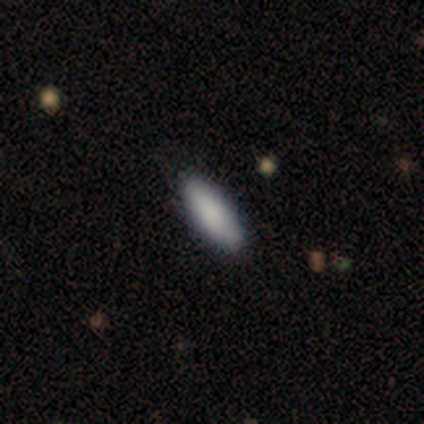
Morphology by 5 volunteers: A smooth galaxy with no disk features (100%) that is cigar-shaped (60%).

Vote fractions:
- Smooth or featured? smooth: 100% / featured or disk: 0% / star or artifact: 0%
- How rounded? cigar-shaped: 60% / in between: 40% / round: 0%
- Merging? none: 100% / minor disturbance: 0% / major disturbance: 0% / merger: 0%